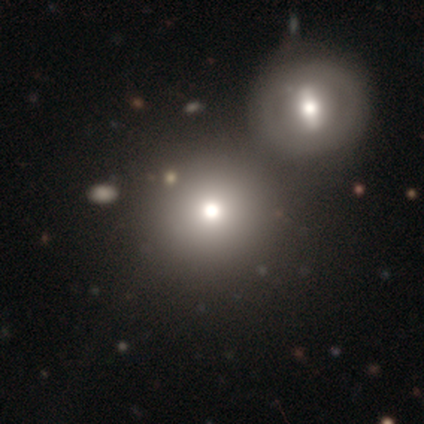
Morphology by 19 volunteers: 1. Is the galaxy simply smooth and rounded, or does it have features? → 74% smooth, 21% star or artifact, 5% featured or disk.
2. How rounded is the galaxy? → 93% round, 7% in between, 0% cigar-shaped.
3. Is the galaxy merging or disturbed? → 53% merger, 27% none, 0% minor disturbance, 0% major disturbance.